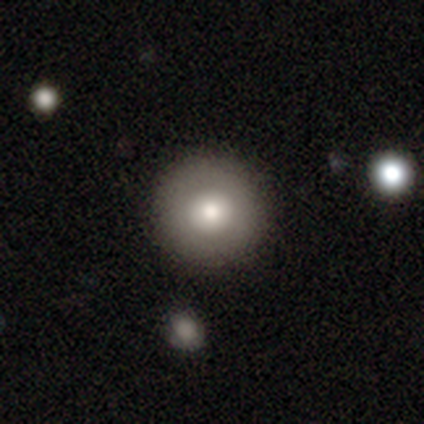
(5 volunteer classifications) smooth_or_featured: smooth (p=0.80) [alt: featured or disk p=0.20]
how_rounded: round (p=0.75) [alt: in between p=0.25]
merging: none (p=1.00)